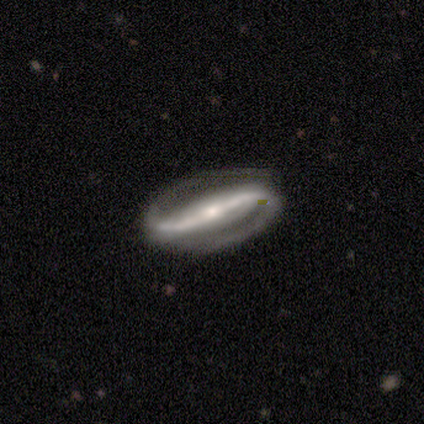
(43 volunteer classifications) Volunteers were most divided on "bulge size": small: 49%, moderate: 44%, large: 5%, dominant: 3%, none: 0%. Remaining: edge-on disk — no (98%); spiral arm count — 2 (97%); smooth or featured — featured or disk (93%); spiral arms — yes (92%); merging — none (77%); bar — strong (69%); spiral winding — medium (47%).